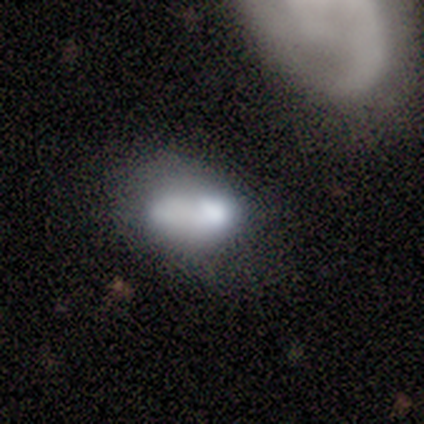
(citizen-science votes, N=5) This is likely a smooth galaxy (60%). How rounded: clearly in between (100%). Merging: likely none (60%).